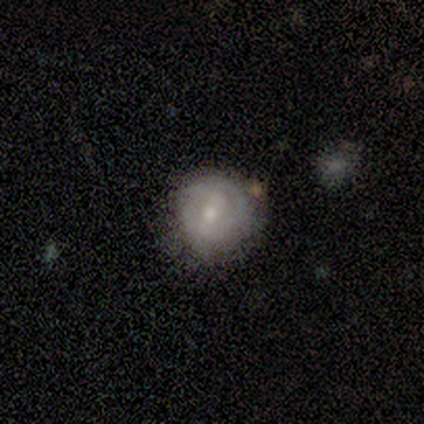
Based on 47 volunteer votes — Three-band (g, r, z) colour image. It shows a smooth galaxy with no disk features (53%) that is round (84%). Merging: none (66%).